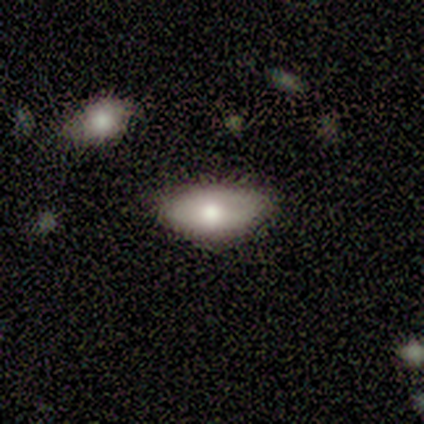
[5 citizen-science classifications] Overall: smooth (80%). How rounded: in between (100%). Merging: none (80%).